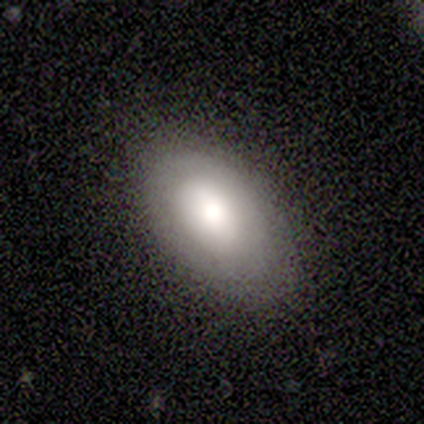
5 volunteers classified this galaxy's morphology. smooth-or-featured: smooth: 60% | featured or disk: 40% | star or artifact: 0%
  how-rounded: in between: 100% | round: 0% | cigar-shaped: 0%
  merging: none: 80% | minor disturbance: 20% | major disturbance: 0% | merger: 0%